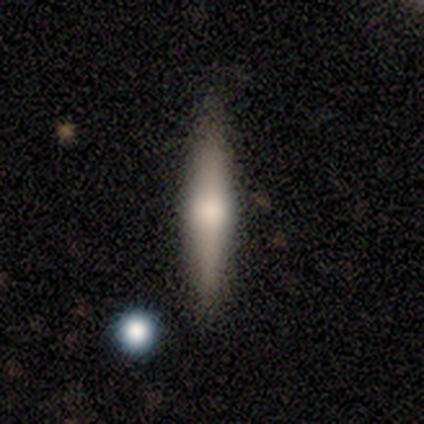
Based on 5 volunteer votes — A featured or disk galaxy (80%) viewed edge-on (100%) with a rounded central bulge (100%). Merging: none (100%).